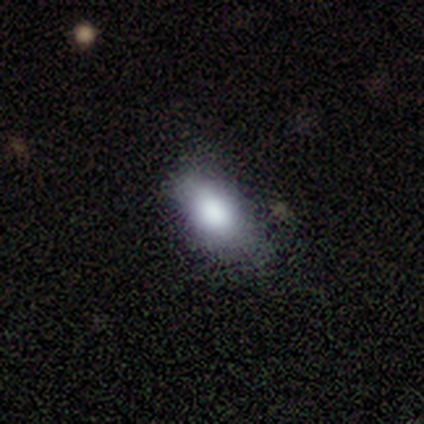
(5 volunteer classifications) Smooth or featured? smooth (100%)
How rounded? in between (100%)
Merging? none (60%)